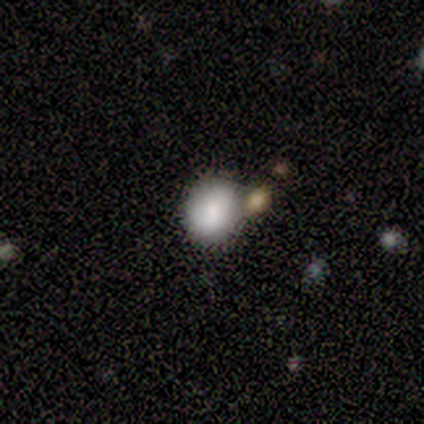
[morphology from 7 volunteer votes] type=smooth (100%); roundness=round (86%); merging=none (86%).